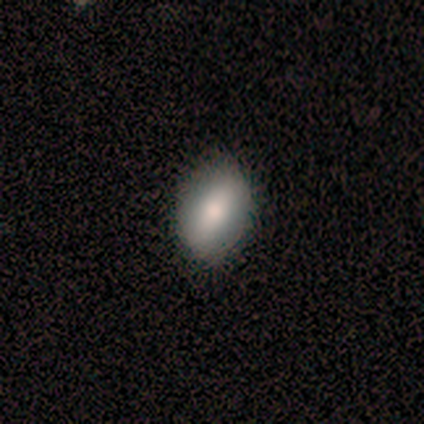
Smooth or featured? smooth (64%)
How rounded? in between (80%)
Merging? none (83%)